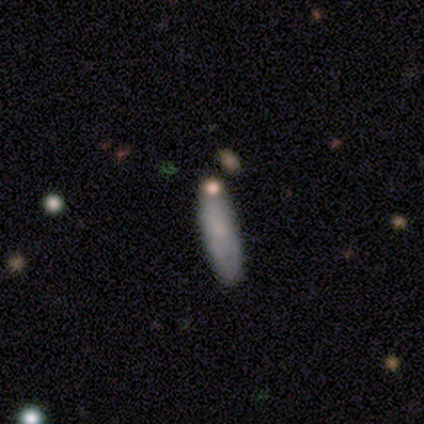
Smooth or featured: smooth — 100%
How rounded: in between — 50% (tied with cigar-shaped — 50%)
Merging: none — 100%